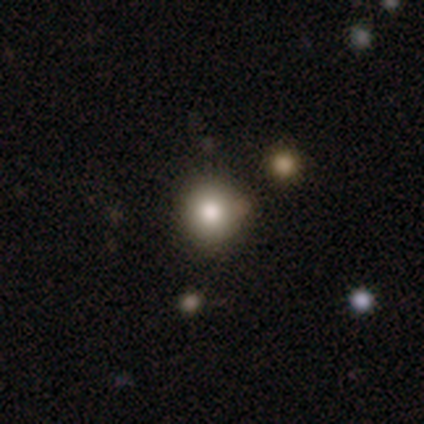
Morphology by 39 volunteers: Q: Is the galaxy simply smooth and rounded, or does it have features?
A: smooth — 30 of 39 (77%).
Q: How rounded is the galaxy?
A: round — 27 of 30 (90%).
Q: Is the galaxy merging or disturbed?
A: none — 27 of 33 (82%).